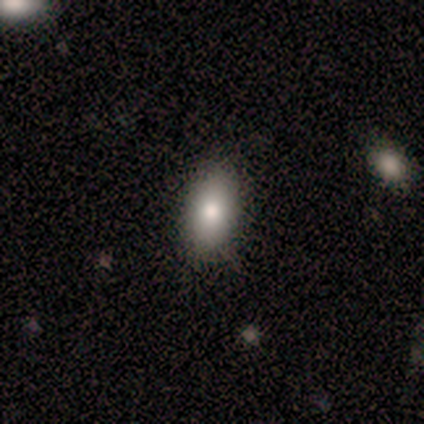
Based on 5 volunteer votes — Smooth or featured? 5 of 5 (100%) said smooth. How rounded? 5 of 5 (100%) said in between. Merging? 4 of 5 (80%) said none.